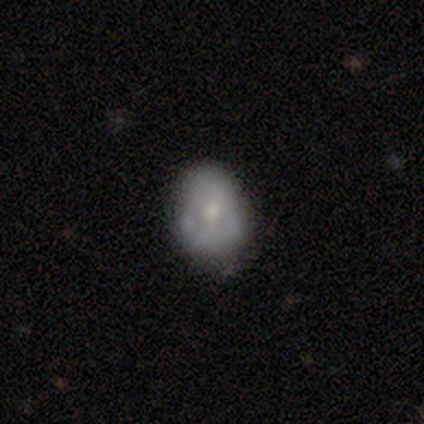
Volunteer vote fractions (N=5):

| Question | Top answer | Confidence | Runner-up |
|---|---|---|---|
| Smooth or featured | featured or disk | 60% | smooth (20%) |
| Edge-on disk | no | 100% | — |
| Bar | strong | 33% | tied: weak (33%), no (33%) |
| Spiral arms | no | 67% | yes (33%) |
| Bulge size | moderate | 67% | small (33%) |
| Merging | none | 50% | tied: minor disturbance (50%) |